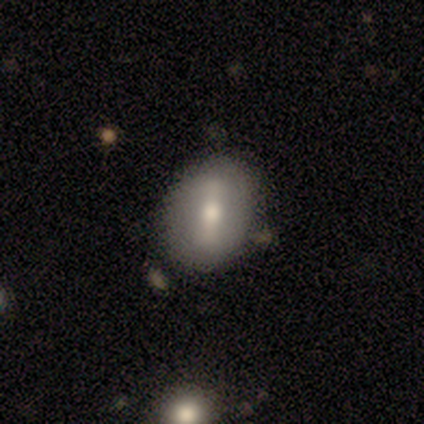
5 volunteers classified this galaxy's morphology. Smooth or featured: featured or disk — 60% (smooth — 40%)
Edge-on disk: no — 100%
Bar: strong — 100%
Spiral arms: no — 100%
Bulge size: moderate — 100%
Merging: none — 100%